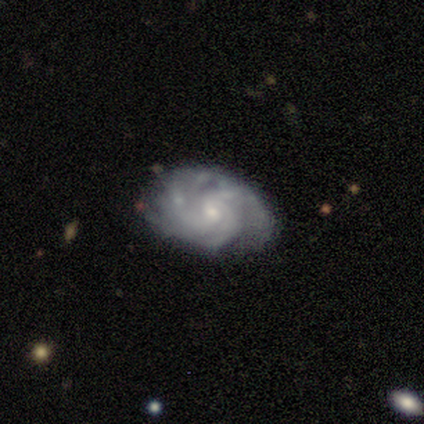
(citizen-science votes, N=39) Q: Smooth or featured?
A: featured or disk (77%); runner-up: smooth (23%)
Q: Edge-on disk?
A: no (93%); runner-up: yes (7%)
Q: Bar?
A: no (61%); runner-up: weak (36%)
Q: Spiral arms?
A: yes (100%)
Q: Spiral winding?
A: tight (61%); runner-up: medium (36%)
Q: Spiral arm count?
A: 4 (29%); runner-up: 3 (25%)
Q: Bulge size?
A: small (79%); runner-up: moderate (11%)
Q: Merging?
A: none (69%); runner-up: minor disturbance (21%)